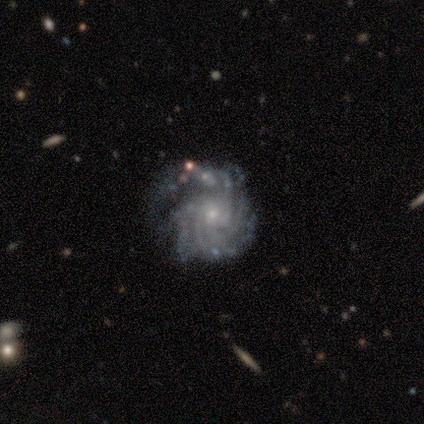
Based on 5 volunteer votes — Smooth or featured? 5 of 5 (100%) said featured or disk. Edge-on disk? 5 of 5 (100%) said no. Bar? 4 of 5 (80%) said no. Spiral arms? 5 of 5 (100%) said yes. Spiral winding? 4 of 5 (80%) said tight. Spiral arm count? 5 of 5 (100%) said more than 4. Bulge size? 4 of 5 (80%) said small. Merging? 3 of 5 (60%) said none.